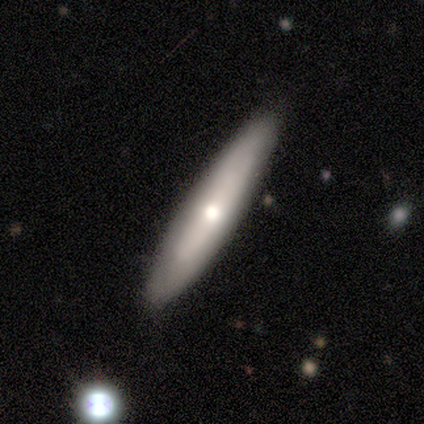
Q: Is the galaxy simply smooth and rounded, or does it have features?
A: smooth — 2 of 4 (50%, tied with featured or disk).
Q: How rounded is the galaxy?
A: cigar-shaped — 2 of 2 (100%).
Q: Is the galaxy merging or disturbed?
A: none — 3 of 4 (75%).